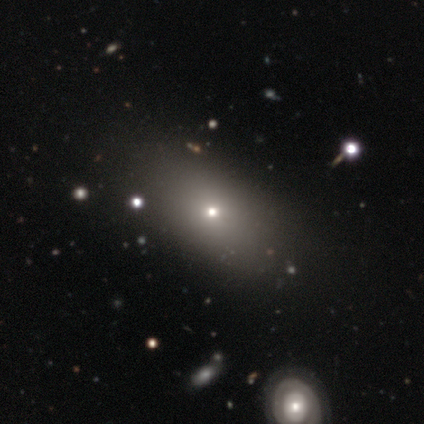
smooth-or-featured: smooth: 69% | featured or disk: 16% | star or artifact: 15%
  how-rounded: in between: 86% | round: 12% | cigar-shaped: 2%
  merging: none: 46% | minor disturbance: 8% | major disturbance: 0% | merger: 0%